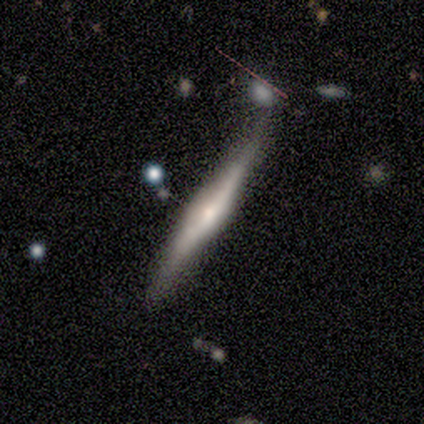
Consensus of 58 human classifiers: This is possibly a featured or disk galaxy (55%). It is clearly viewed edge-on (88%). Edge-on bulge: likely rounded (75%). Merging: possibly none (57%).